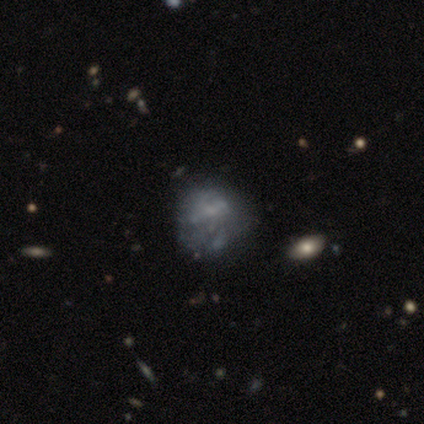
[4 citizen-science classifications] Volunteers were most divided on "smooth or featured" (2-way tie): smooth: 50%, featured or disk: 50%, star or artifact: 0%. More confident: how rounded — round (100%); merging — none (75%).